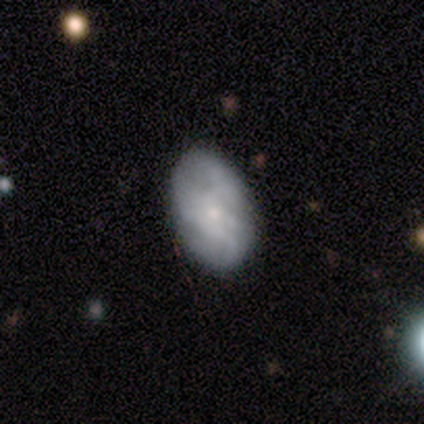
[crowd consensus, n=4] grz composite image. It shows a featured or disk galaxy (50%) with no bar (100%), 3 (100%) medium (100%) spiral arms (50%, tied with no) and a small central bulge (100%). Merging: none (100%).